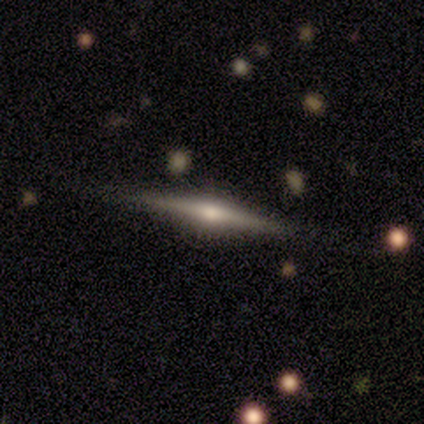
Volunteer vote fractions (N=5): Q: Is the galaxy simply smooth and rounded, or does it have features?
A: featured or disk — 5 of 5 (100%).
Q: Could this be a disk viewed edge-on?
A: yes — 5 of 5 (100%).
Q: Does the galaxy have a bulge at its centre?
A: rounded — 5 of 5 (100%).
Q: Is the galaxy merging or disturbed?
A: none — 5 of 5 (100%).